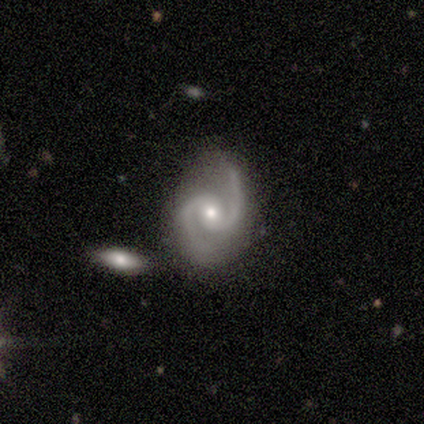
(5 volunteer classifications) Q: Smooth or featured?
A: featured or disk (80%); runner-up: star or artifact (20%)
Q: Edge-on disk?
A: no (100%)
Q: Bar?
A: weak (75%); runner-up: no (25%)
Q: Spiral arms?
A: yes (100%)
Q: Spiral winding?
A: medium (75%); runner-up: loose (25%)
Q: Spiral arm count?
A: 2 (100%)
Q: Bulge size?
A: moderate (50%); tied with: small (50%)
Q: Merging?
A: none (100%)